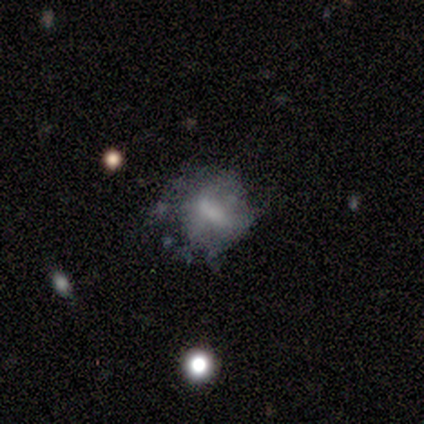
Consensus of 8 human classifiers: Morphology: type=featured or disk (62%); edge-on=no (100%); bar=no (60%); spiral arms=no (100%); bulge=none (80%); merging=none (50%).